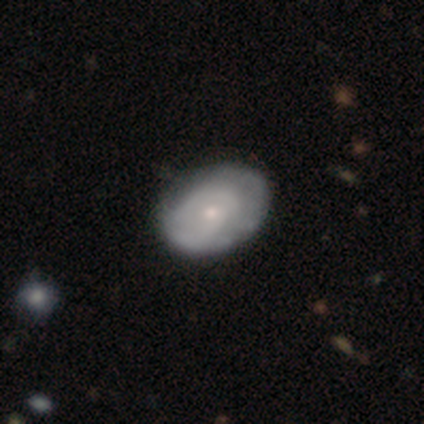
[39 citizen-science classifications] featured or disk 62%, smooth 38%, star or artifact 0%. Down the decision tree: edge-on disk — no (100%); bar — no (88%); spiral arms — yes (50%, tied with no); spiral arm count — can't tell (50%); spiral winding — medium (58%); bulge size — small (67%); merging — none (64%).